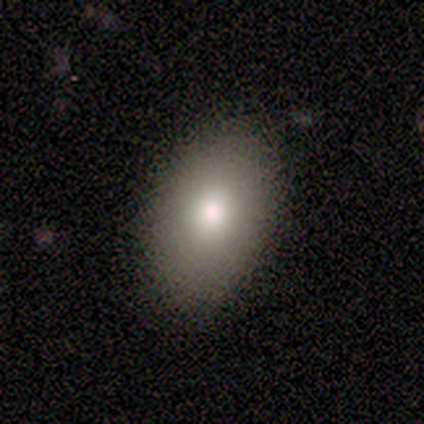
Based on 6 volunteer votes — Overall: smooth (67%). How rounded: in between (100%). Merging: none (80%).